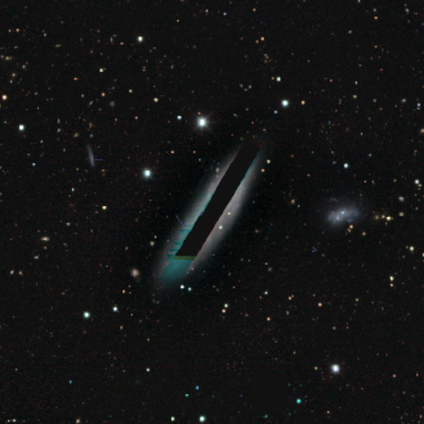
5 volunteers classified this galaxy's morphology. Smooth or featured: star or artifact — 80% (featured or disk — 20%)